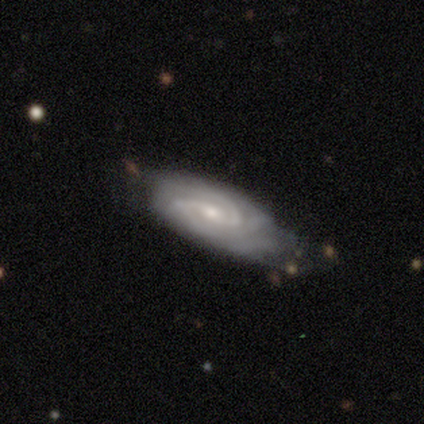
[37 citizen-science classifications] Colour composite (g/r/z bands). It shows a featured or disk galaxy (95%) with no bar (42%), 2 (73%) medium (50%) spiral arms (97%) and a small central bulge (61%). Merging: none (50%).